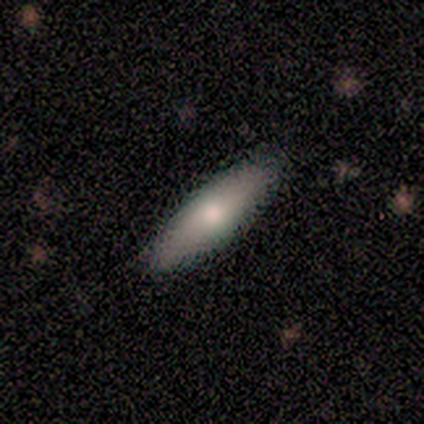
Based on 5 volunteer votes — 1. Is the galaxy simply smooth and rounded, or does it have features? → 60% smooth, 40% featured or disk, 0% star or artifact.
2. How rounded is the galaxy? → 100% in between, 0% round, 0% cigar-shaped.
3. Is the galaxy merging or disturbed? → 80% none, 20% minor disturbance, 0% major disturbance, 0% merger.